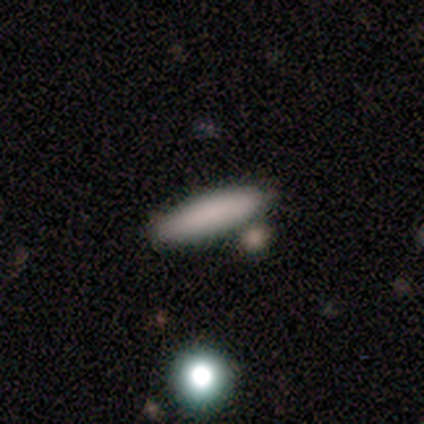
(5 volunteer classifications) Q: Smooth or featured?
A: smooth (100%)
Q: How rounded?
A: cigar-shaped (80%); runner-up: round (20%)
Q: Merging?
A: none (60%); runner-up: merger (40%)